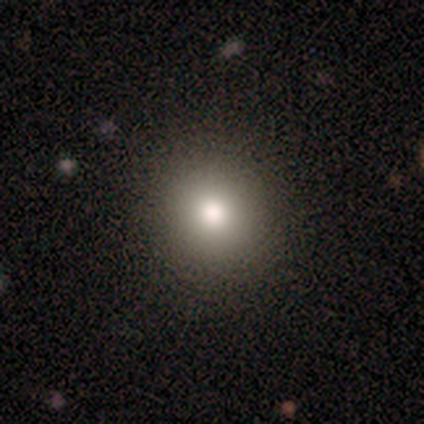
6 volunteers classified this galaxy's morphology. smooth_or_featured: smooth (p=0.67) [alt: featured or disk p=0.17]
how_rounded: round (p=1.00)
merging: none (p=0.80) [alt: minor disturbance p=0.20]